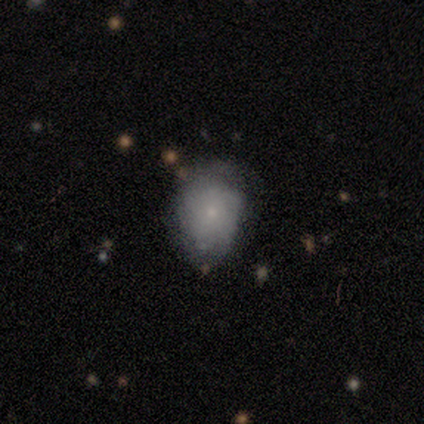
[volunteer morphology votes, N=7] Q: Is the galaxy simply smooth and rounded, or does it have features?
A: featured or disk — 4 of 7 (57%).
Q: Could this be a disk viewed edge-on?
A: no — 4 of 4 (100%).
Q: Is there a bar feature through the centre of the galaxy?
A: no — 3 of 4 (75%).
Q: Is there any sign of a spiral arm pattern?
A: yes — 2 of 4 (50%, tied with no).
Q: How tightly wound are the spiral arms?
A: tight — 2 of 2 (100%).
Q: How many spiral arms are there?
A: can't tell — 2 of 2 (100%).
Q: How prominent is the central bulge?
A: small — 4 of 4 (100%).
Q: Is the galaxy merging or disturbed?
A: none — 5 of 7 (71%).